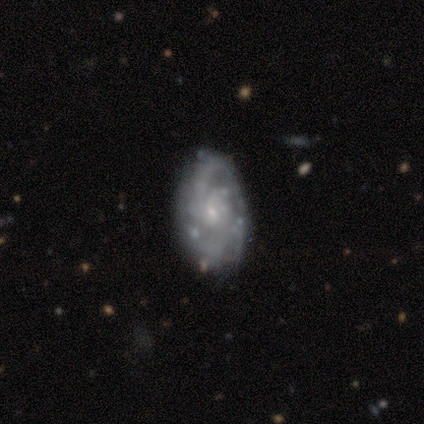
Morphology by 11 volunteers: Overall: featured or disk (82%). Edge-on disk: no (78%). Bar: no (86%). Spiral arms: yes (86%). Spiral arm count: 2 (50%; 3 33%). Spiral winding: tight (67%; medium 33%). Bulge size: small (100%). Merging: none (73%).